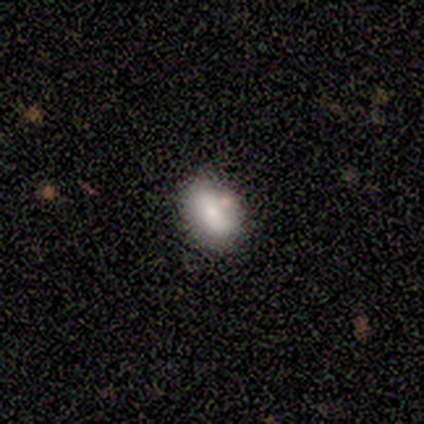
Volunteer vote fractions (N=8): Smooth or featured? smooth (88%)
How rounded? in between (100%)
Merging? none (88%)